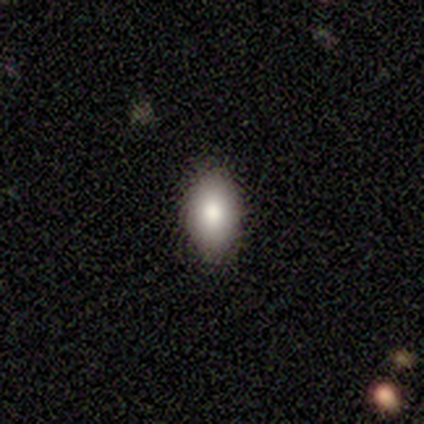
Smooth or featured? smooth (83%)
How rounded? in between (100%)
Merging? none (67%)